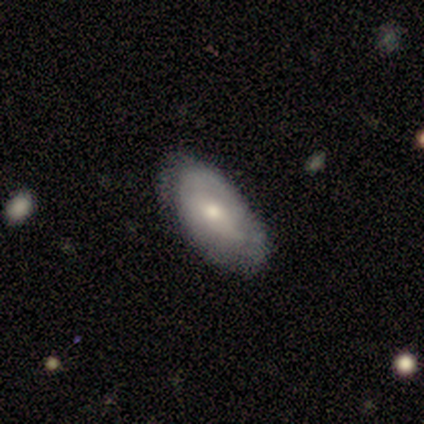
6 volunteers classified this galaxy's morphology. This is possibly a featured or disk galaxy (50%). It is clearly not viewed edge-on (100%). Bar: likely no (67%). Spiral arm pattern: clearly no (100%). Central bulge: clearly small (100%). Merging: likely minor disturbance (60%).